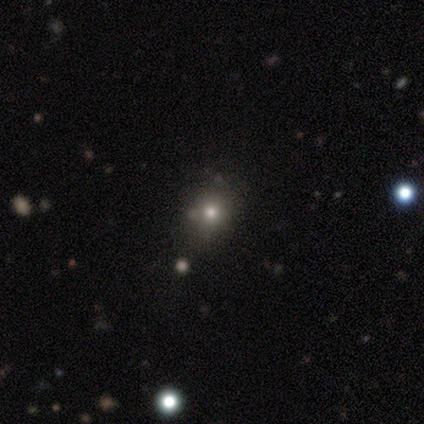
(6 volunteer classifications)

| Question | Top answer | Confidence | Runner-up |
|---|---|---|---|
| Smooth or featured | smooth | 67% | star or artifact (33%) |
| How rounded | round | 100% | — |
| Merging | minor disturbance | 75% | none (25%) |